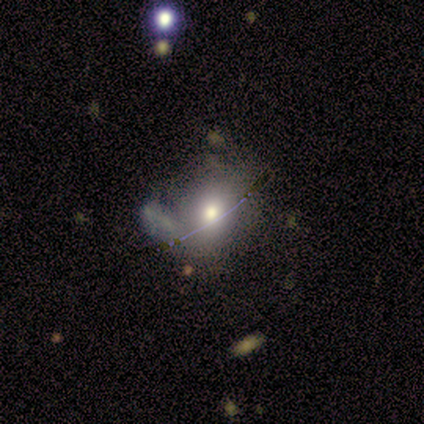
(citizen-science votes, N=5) A smooth galaxy with no disk features (60%) that is round (67%). Merging: merger (50%).